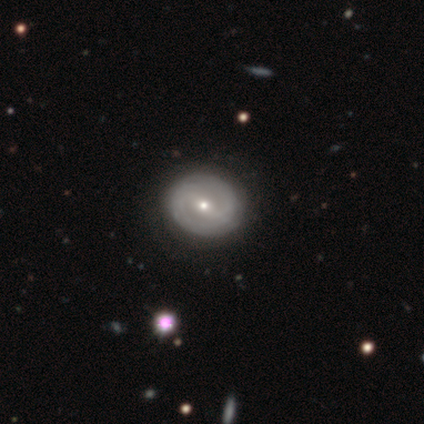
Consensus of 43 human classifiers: This appears to be a featured or disk galaxy (63%) with a weak bar (52%), 2 (70%) tight (60%) spiral arms (74%) and a small central bulge (63%). Merging: none (89%).